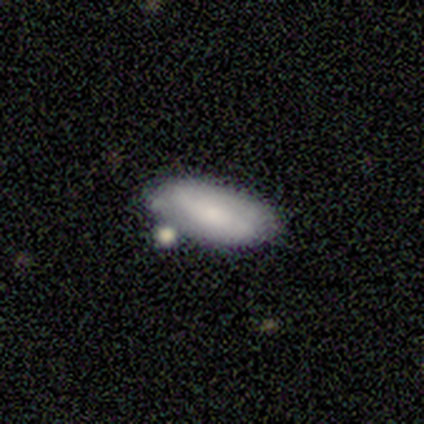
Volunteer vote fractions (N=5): Volunteers were most divided on "merging": none: 60%, merger: 40%, minor disturbance: 0%, major disturbance: 0%. More confident: smooth or featured — smooth (80%); how rounded — in between (75%).